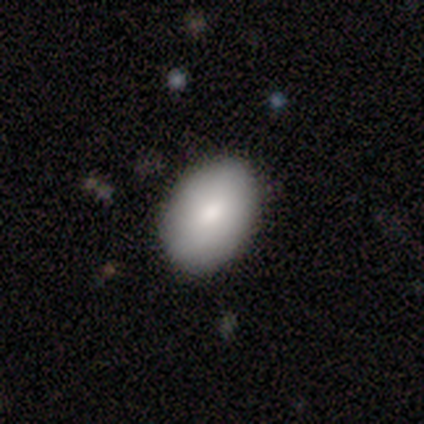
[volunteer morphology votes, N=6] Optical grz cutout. It shows a smooth galaxy with no disk features (83%) that is in between round and cigar-shaped (80%). Merging: none (100%).